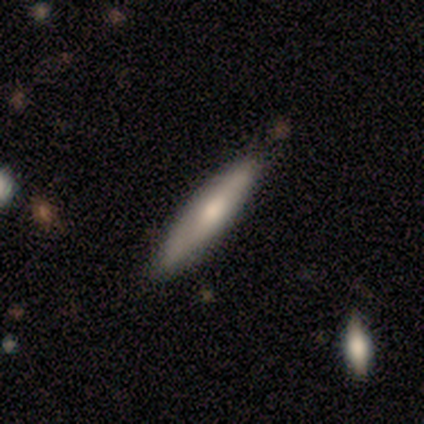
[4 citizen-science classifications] Overall: smooth (100%). How rounded: cigar-shaped (100%). Merging: none (100%).